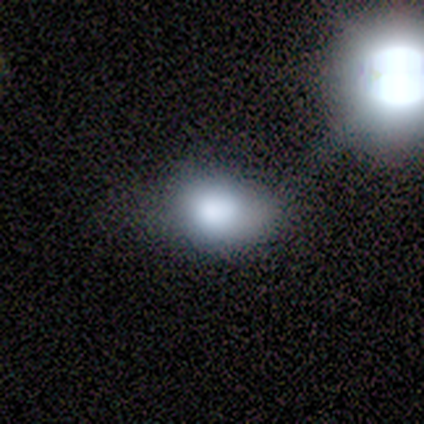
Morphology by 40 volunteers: Q: Smooth or featured?
A: smooth (75%); runner-up: featured or disk (15%)
Q: How rounded?
A: in between (83%); runner-up: round (17%)
Q: Merging?
A: none (36%); runner-up: minor disturbance (17%)